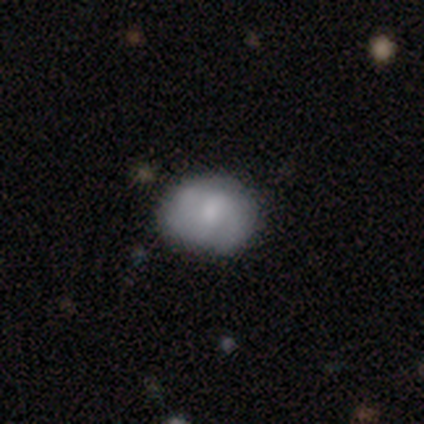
A smooth galaxy with no disk features (64%) that is in between round and cigar-shaped (52%). Merging: none (73%).